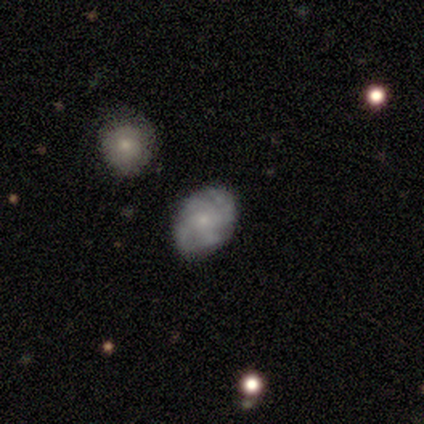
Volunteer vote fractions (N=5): Smooth or featured?
  - smooth: 80% *
  - featured or disk: 20%
  - star or artifact: 0%
How rounded?
  - round: 50% * (tied)
  - in between: 50% * (tied)
  - cigar-shaped: 0%
Merging?
  - none: 100% *
  - minor disturbance: 0%
  - major disturbance: 0%
  - merger: 0%